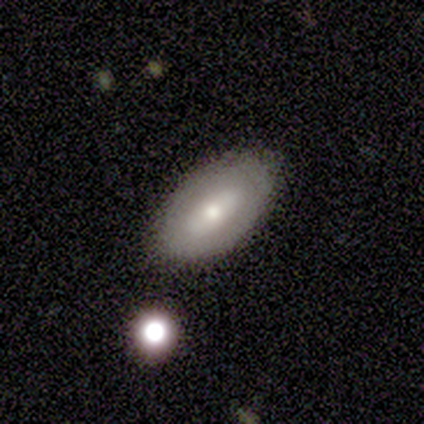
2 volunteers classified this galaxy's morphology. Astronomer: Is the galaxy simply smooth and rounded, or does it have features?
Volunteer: smooth — 100%.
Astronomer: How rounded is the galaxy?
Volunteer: in between — 100%.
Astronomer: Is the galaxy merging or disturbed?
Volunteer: none — 50%, tied with minor disturbance at 50%.